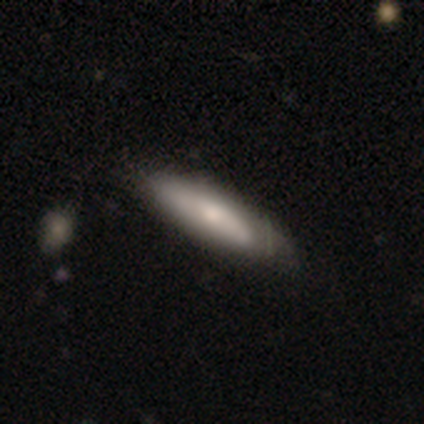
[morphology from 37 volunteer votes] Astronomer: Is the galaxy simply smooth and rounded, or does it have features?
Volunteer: smooth — 78%.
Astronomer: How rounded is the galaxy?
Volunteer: cigar-shaped — 62%.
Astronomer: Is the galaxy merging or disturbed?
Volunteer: none — 42%.